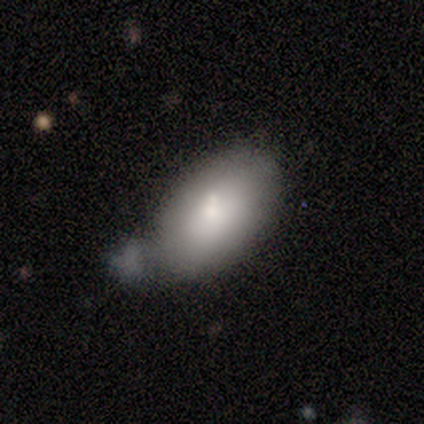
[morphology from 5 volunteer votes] Volunteers were most divided on "merging": minor disturbance: 60%, none: 20%, merger: 20%, major disturbance: 0%. More confident: how rounded — in between (100%); smooth or featured — smooth (80%).